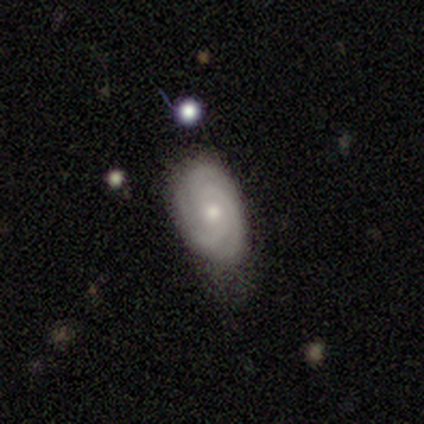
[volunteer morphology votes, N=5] smooth-or-featured: featured or disk: 80% | smooth: 20% | star or artifact: 0%
  disk-edge-on: no: 100% | yes: 0%
    bar: no: 100% | strong: 0% | weak: 0%
    has-spiral-arms: yes: 100% | no: 0%
      spiral-winding: tight: 75% | medium: 25% | loose: 0%
      spiral-arm-count: 3: 50% | 2: 25% | can't tell: 25% | 1: 0% | 4: 0% | more than 4: 0%
    bulge-size: small: 75% | moderate: 25% | dominant: 0% | large: 0% | none: 0%
  merging: minor disturbance: 60% | none: 40% | major disturbance: 0% | merger: 0%